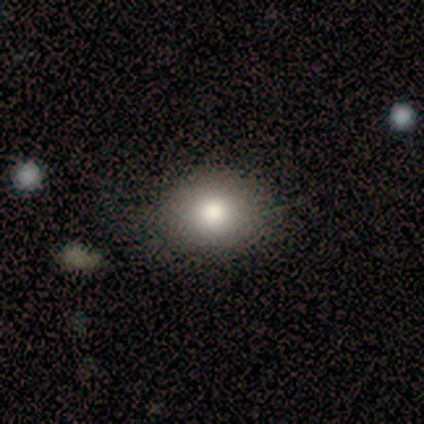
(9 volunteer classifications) A smooth galaxy with no disk features (44%, tied with star or artifact) that is round (75%).

Vote fractions:
- Smooth or featured? smooth: 44% (tied) / star or artifact: 44% (tied) / featured or disk: 11%
- How rounded? round: 75% / in between: 25% / cigar-shaped: 0%
- Merging? none: 100% / minor disturbance: 0% / major disturbance: 0% / merger: 0%